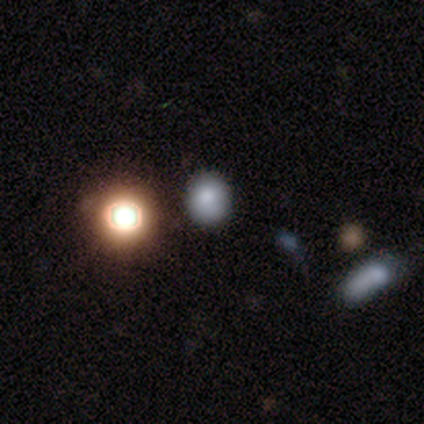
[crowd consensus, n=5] This appears to be a smooth galaxy with no disk features (80%) that is round (75%). Merging: none (80%).